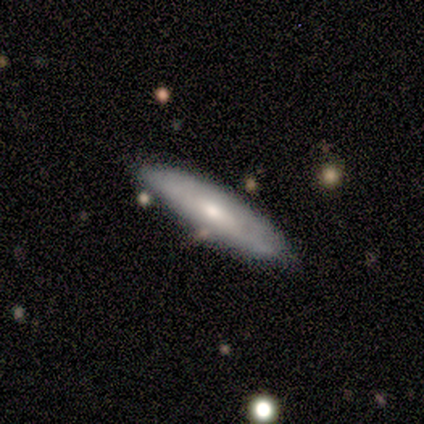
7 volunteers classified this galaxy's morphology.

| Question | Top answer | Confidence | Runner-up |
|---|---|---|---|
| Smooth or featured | smooth | 86% | featured or disk (14%) |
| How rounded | cigar-shaped | 50% | in between (33%) |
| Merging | none | 71% | major disturbance (14%) |